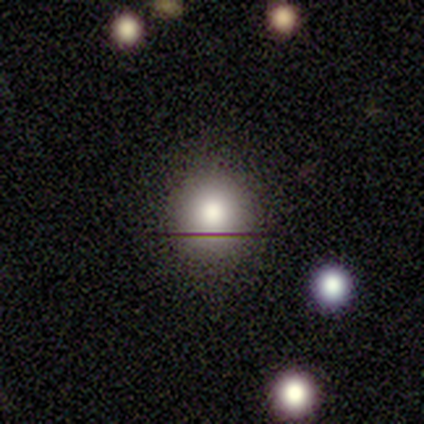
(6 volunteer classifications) smooth 83%, featured or disk 17%, star or artifact 0%. Down the decision tree: how rounded — round (100%); merging — none (100%).